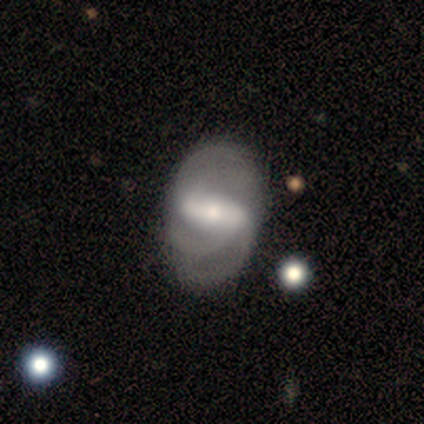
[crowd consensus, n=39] Volunteers were most divided on "merging": none: 25%, minor disturbance: 17%, major disturbance: 14%, merger: 6%. Remaining: edge-on disk — no (96%); spiral arms — yes (89%); bar — strong (89%); smooth or featured — featured or disk (72%); bulge size — moderate (59%); spiral winding — medium (54%); spiral arm count — 3 (42%).